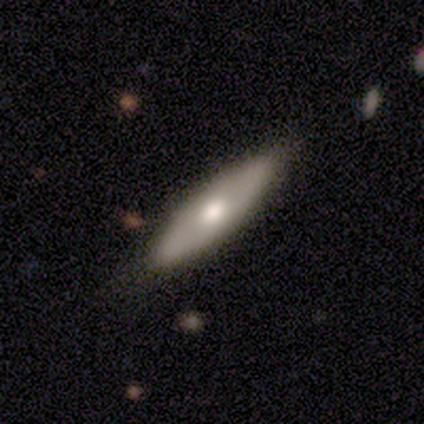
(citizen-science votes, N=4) A smooth galaxy with no disk features (50%, tied with featured or disk) that is cigar-shaped (100%).

Vote fractions:
- Smooth or featured? smooth: 50% (tied) / featured or disk: 50% (tied) / star or artifact: 0%
- How rounded? cigar-shaped: 100% / round: 0% / in between: 0%
- Merging? none: 100% / minor disturbance: 0% / major disturbance: 0% / merger: 0%